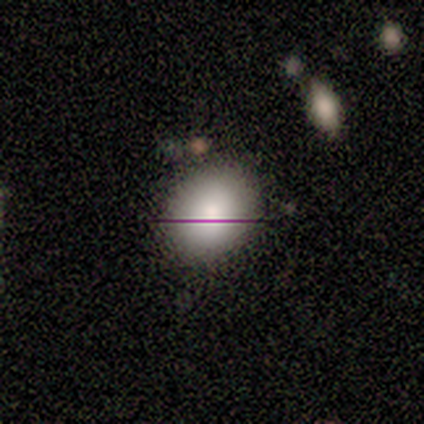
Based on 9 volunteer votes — Smooth or featured? smooth (89%)
How rounded? in between (62%)
Merging? none (88%)